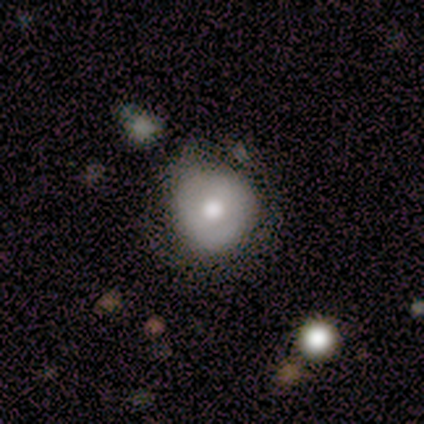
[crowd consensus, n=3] This is clearly a smooth galaxy (100%). How rounded: clearly round (100%). Merging: likely none (67%).